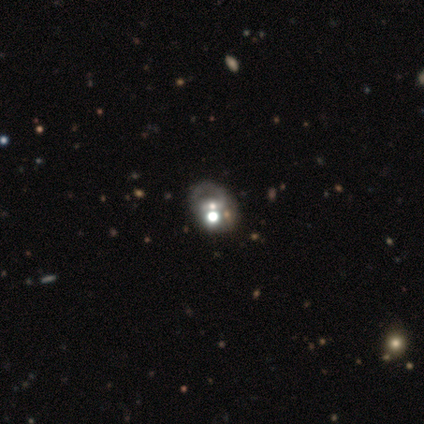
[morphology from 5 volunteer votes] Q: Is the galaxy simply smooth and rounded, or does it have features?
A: featured or disk — 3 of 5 (60%).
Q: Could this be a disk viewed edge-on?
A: no — 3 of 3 (100%).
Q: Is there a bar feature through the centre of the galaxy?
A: strong — 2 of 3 (67%).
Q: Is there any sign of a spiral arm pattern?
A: yes — 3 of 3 (100%).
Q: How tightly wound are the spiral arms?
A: medium — 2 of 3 (67%).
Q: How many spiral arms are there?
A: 2 — 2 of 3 (67%).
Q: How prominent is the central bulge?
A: moderate — 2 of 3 (67%).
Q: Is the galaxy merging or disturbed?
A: none — 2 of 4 (50%).